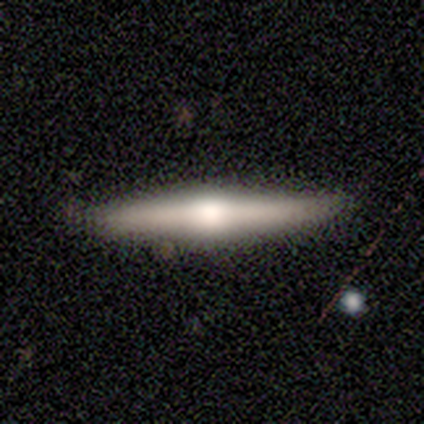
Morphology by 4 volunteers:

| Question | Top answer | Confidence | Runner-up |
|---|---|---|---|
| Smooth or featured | smooth | 100% | — |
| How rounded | cigar-shaped | 100% | — |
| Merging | none | 100% | — |